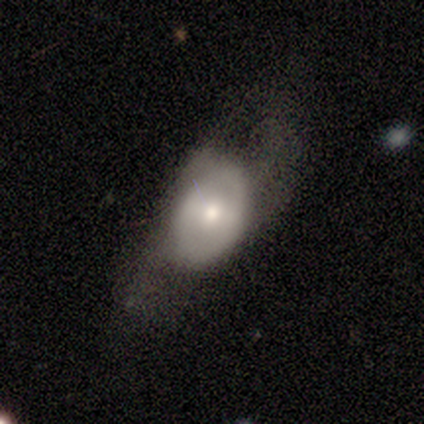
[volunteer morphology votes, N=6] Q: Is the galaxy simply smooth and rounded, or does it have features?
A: featured or disk — 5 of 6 (83%).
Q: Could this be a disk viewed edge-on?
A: no — 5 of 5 (100%).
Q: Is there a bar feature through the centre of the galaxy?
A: weak — 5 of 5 (100%).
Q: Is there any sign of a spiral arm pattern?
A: no — 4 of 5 (80%).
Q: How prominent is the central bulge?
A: moderate — 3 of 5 (60%).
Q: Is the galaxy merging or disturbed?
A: none — 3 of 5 (60%).